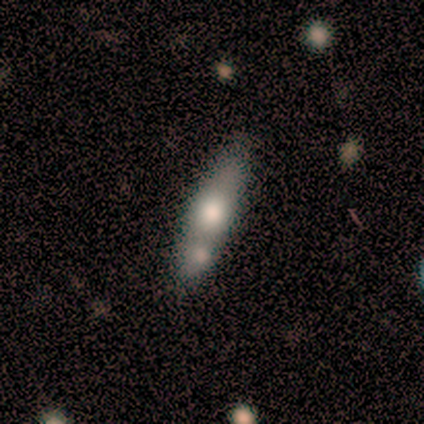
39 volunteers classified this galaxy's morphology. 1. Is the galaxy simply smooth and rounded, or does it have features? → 49% smooth, 44% featured or disk, 8% star or artifact.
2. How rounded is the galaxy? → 68% cigar-shaped, 26% in between, 5% round.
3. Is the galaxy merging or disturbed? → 50% none, 25% merger, 22% minor disturbance, 3% major disturbance.